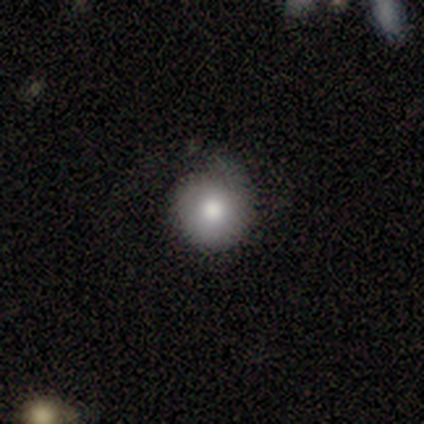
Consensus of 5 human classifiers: A smooth galaxy with no disk features (60%) that is round (100%).

Vote fractions:
- Smooth or featured? smooth: 60% / star or artifact: 40% / featured or disk: 0%
- How rounded? round: 100% / in between: 0% / cigar-shaped: 0%
- Merging? none: 67% / minor disturbance: 33% / major disturbance: 0% / merger: 0%